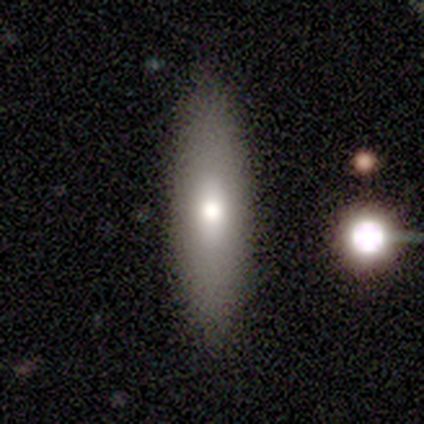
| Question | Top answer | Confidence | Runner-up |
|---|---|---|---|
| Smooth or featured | smooth | 67% | featured or disk (28%) |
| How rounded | in between | 54% | cigar-shaped (46%) |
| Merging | none | 85% | major disturbance (9%) |